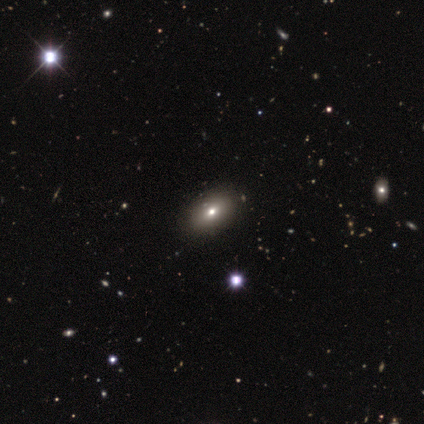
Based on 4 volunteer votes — Volunteers were most divided on "smooth or featured": smooth: 75%, star or artifact: 25%, featured or disk: 0%. More confident: how rounded — in between (100%); merging — none (100%).